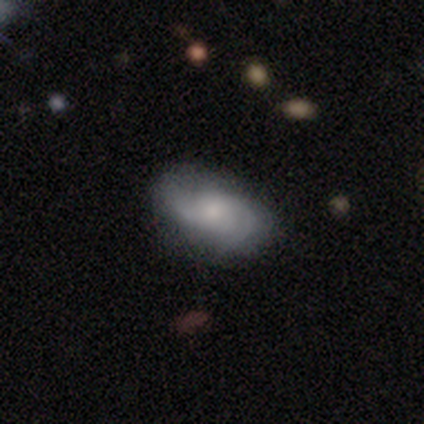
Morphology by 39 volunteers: A featured or disk galaxy (62%) with no bar (70%), 2 (73%) medium (41%) spiral arms (96%) and a moderate central bulge (52%).

Vote fractions:
- Smooth or featured? featured or disk: 62% / smooth: 31% / star or artifact: 8%
- Edge-on disk? no: 96% / yes: 4%
- Bar? no: 70% / weak: 30% / strong: 0%
- Spiral arms? yes: 96% / no: 4%
- Spiral winding? medium: 41% / loose: 32% / tight: 27%
- Spiral arm count? 2: 73% / can't tell: 14% / 3: 9% / 4: 5% / 1: 0% / more than 4: 0%
- Bulge size? moderate: 52% / small: 35% / none: 9% / large: 4% / dominant: 0%
- Merging? none: 75% / minor disturbance: 19% / major disturbance: 3% / merger: 3%